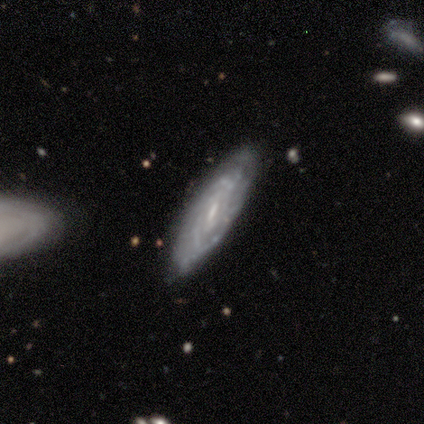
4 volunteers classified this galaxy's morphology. Smooth or featured?
  - featured or disk: 50% *
  - smooth: 25%
  - star or artifact: 25%
Edge-on disk?
  - no: 100% *
  - yes: 0%
Bar?
  - strong: 50% * (tied)
  - weak: 50% * (tied)
  - no: 0%
Spiral arms?
  - yes: 100% *
  - no: 0%
Spiral winding?
  - tight: 50% * (tied)
  - medium: 50% * (tied)
  - loose: 0%
Spiral arm count?
  - can't tell: 100% *
  - 1: 0%
  - 2: 0%
  - 3: 0%
  - 4: 0%
  - more than 4: 0%
Bulge size?
  - moderate: 100% *
  - dominant: 0%
  - large: 0%
  - small: 0%
  - none: 0%
Merging?
  - none: 67% *
  - minor disturbance: 33%
  - major disturbance: 0%
  - merger: 0%